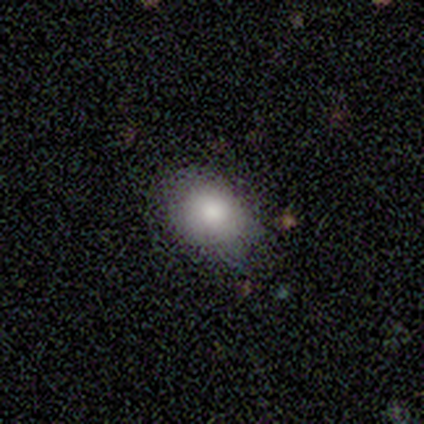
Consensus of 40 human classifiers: Smooth or featured?
  - smooth: 72% *
  - featured or disk: 18%
  - star or artifact: 10%
How rounded?
  - in between: 72% *
  - round: 28%
  - cigar-shaped: 0%
Merging?
  - none: 61% *
  - minor disturbance: 33%
  - major disturbance: 3%
  - merger: 3%